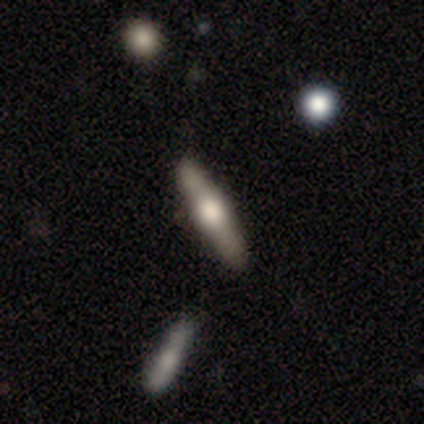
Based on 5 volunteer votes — Smooth or featured? featured or disk (80%)
Edge-on disk? yes (100%)
Edge-on bulge? rounded (100%)
Merging? none (100%)